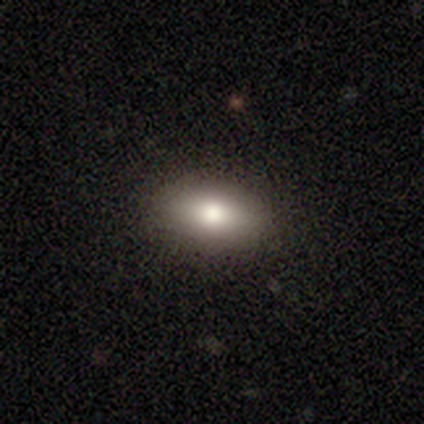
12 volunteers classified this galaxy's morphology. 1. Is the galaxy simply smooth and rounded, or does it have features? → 92% smooth, 8% star or artifact, 0% featured or disk.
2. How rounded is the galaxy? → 100% in between, 0% round, 0% cigar-shaped.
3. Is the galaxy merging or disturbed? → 100% none, 0% minor disturbance, 0% major disturbance, 0% merger.